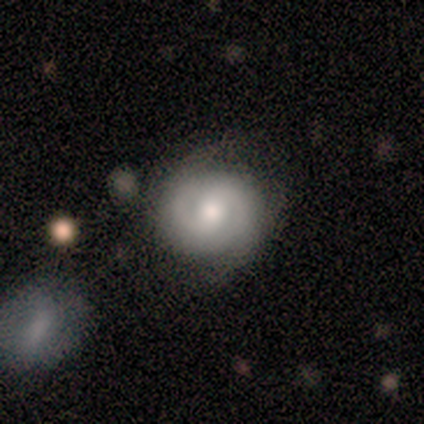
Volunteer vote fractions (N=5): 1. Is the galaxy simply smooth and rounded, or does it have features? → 80% featured or disk, 20% smooth, 0% star or artifact.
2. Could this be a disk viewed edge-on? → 100% no, 0% yes.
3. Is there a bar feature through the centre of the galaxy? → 50% strong (tied), 50% no (tied), 0% weak.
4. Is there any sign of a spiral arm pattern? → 75% yes, 25% no.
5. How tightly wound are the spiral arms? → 100% medium, 0% tight, 0% loose.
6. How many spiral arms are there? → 100% 2, 0% 1, 0% 3, 0% 4, 0% more than 4, 0% can't tell.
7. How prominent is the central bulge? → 50% large (tied), 50% moderate (tied), 0% dominant, 0% small, 0% none.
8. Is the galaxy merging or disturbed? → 80% none, 20% major disturbance, 0% minor disturbance, 0% merger.